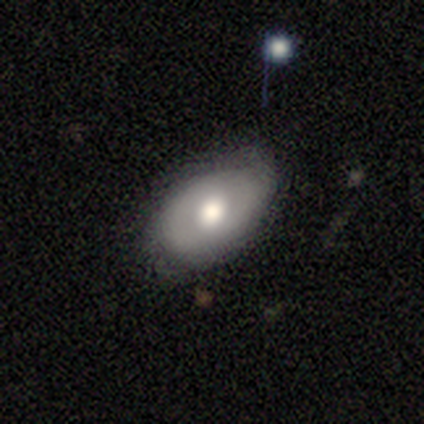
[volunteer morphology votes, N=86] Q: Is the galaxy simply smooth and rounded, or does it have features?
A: smooth — 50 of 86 (58%).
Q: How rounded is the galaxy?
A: in between — 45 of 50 (90%).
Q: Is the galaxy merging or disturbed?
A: none — 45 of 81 (56%).